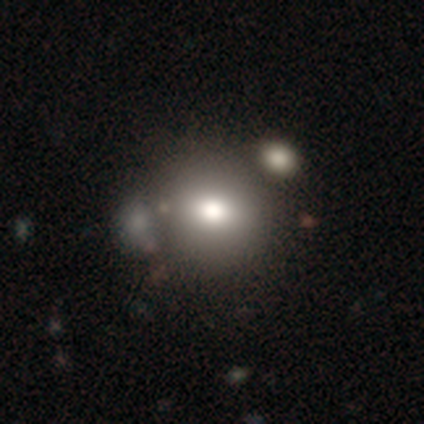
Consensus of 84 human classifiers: Smooth or featured?
  - smooth: 79% *
  - featured or disk: 13%
  - star or artifact: 8%
How rounded?
  - round: 76% *
  - in between: 23%
  - cigar-shaped: 2%
Merging?
  - none: 66% *
  - merger: 14%
  - minor disturbance: 13%
  - major disturbance: 6%